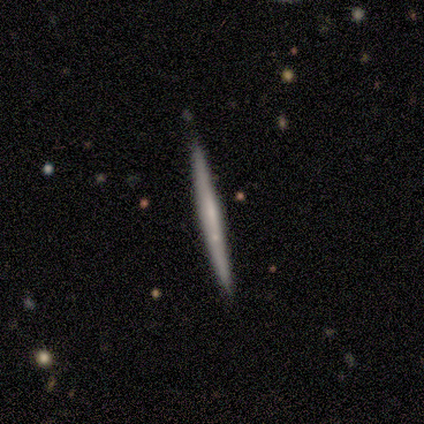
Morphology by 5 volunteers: Q: Smooth or featured?
A: smooth (60%); runner-up: featured or disk (40%)
Q: How rounded?
A: cigar-shaped (100%)
Q: Merging?
A: none (80%); runner-up: minor disturbance (20%)